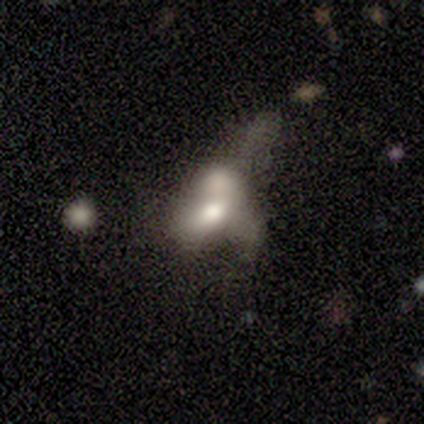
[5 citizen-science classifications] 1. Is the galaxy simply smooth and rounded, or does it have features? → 80% smooth, 20% featured or disk, 0% star or artifact.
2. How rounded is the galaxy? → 100% in between, 0% round, 0% cigar-shaped.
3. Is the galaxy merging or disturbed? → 80% major disturbance, 20% merger, 0% none, 0% minor disturbance.